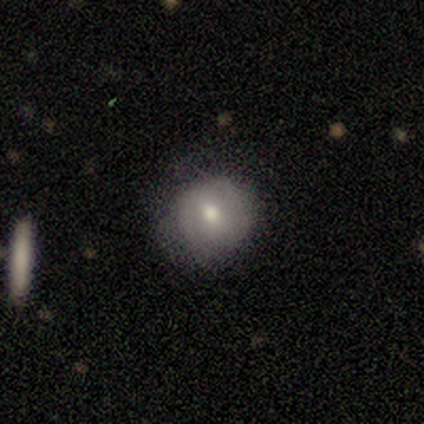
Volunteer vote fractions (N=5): A smooth galaxy with no disk features (80%) that is round (100%). Merging: none (80%).